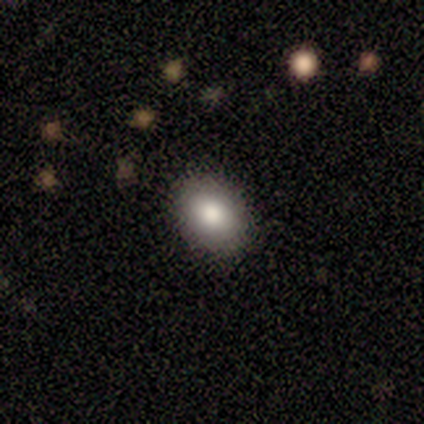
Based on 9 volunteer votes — Volunteers were most divided on "how rounded": in between: 67%, round: 33%, cigar-shaped: 0%. More confident: smooth or featured — smooth (100%); merging — none (100%).